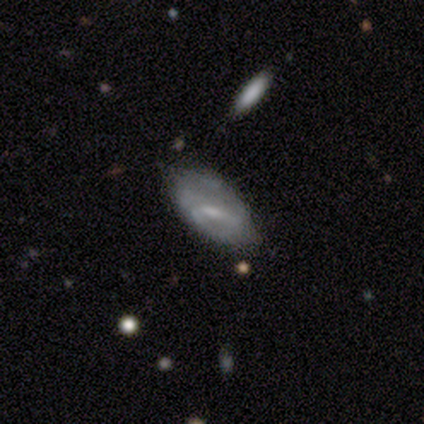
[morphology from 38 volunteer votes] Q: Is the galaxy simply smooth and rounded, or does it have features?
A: featured or disk — 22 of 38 (58%).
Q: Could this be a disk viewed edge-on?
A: no — 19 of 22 (86%).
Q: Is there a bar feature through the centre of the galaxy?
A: strong — 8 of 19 (42%).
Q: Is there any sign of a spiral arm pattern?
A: no — 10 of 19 (53%).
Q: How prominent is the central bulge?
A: small — 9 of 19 (47%).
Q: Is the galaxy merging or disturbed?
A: none — 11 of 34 (32%).